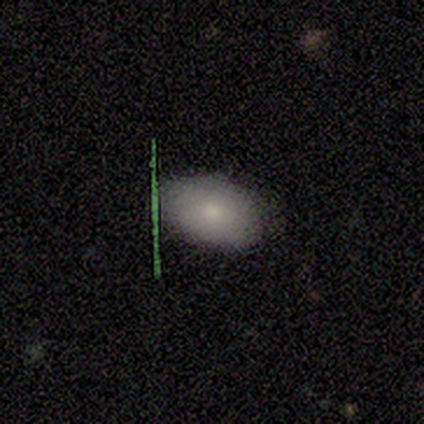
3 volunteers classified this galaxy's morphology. Smooth or featured: smooth — 100%
How rounded: round — 67% (in between — 33%)
Merging: none — 67% (major disturbance — 33%)